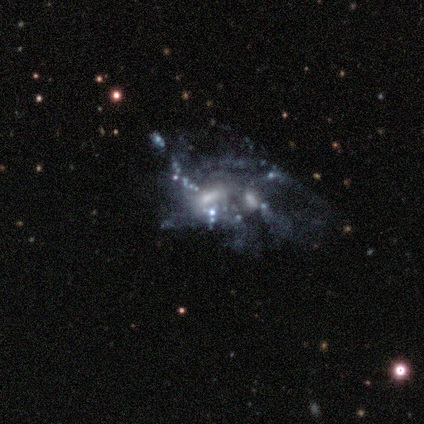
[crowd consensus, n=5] A featured or disk galaxy (40%, tied with star or artifact) with a strong bar (50%, tied with no), more than 4 (100%) loose (100%) spiral arms (50%, tied with no) and a moderate central bulge (50%, tied with none). Merging: minor disturbance (33%, tied with major disturbance and merger).